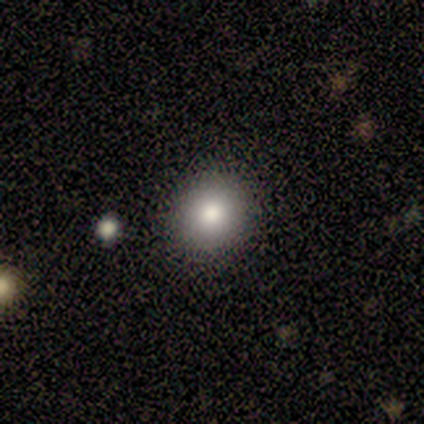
Volunteers were most divided on "merging": none: 67%, major disturbance: 17%, merger: 17%, minor disturbance: 0%. More confident: smooth or featured — smooth (100%); how rounded — round (100%).